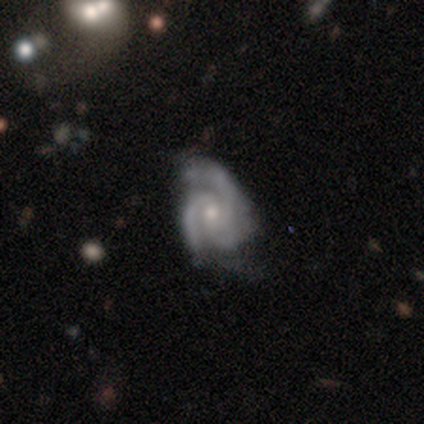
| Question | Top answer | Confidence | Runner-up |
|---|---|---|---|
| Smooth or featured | featured or disk | 92% | star or artifact (6%) |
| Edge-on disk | no | 100% | — |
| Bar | no | 80% | weak (18%) |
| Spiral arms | yes | 100% | — |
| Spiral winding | medium | 52% | tight (45%) |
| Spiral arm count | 3 | 73% | 2 (23%) |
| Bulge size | small | 59% | moderate (41%) |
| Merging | none | 58% | minor disturbance (29%) |